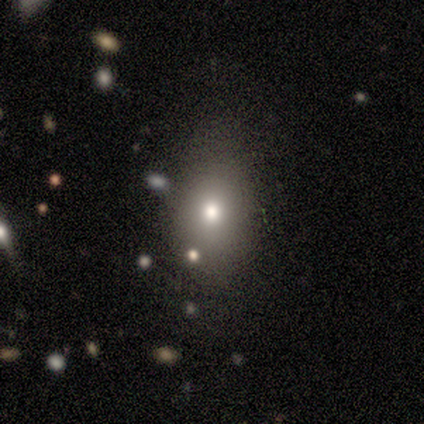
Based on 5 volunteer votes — Volunteers were most divided on "how rounded": round: 60%, in between: 40%, cigar-shaped: 0%. More confident: smooth or featured — smooth (100%); merging — none (80%).